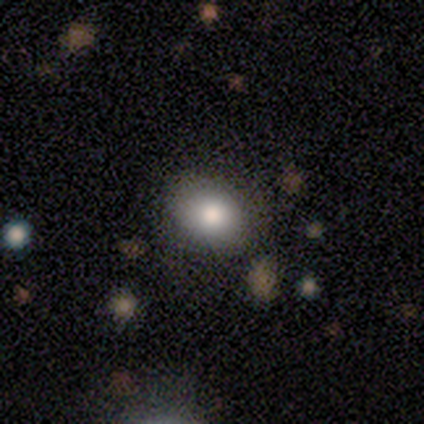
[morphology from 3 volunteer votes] smooth 100%, featured or disk 0%, star or artifact 0%. Down the decision tree: how rounded — in between (67%); merging — none (67%).